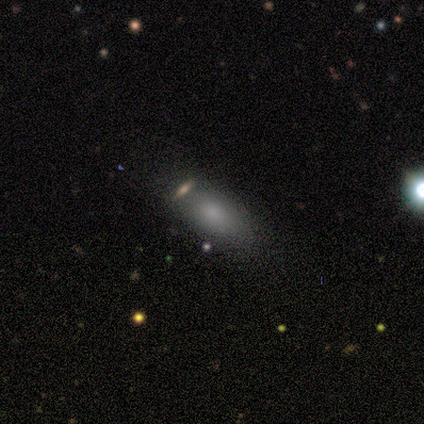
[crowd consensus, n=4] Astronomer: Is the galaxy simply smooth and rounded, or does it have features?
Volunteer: smooth — 100%.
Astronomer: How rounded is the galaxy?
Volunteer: in between — 100%.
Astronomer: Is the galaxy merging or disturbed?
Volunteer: none — 50%.